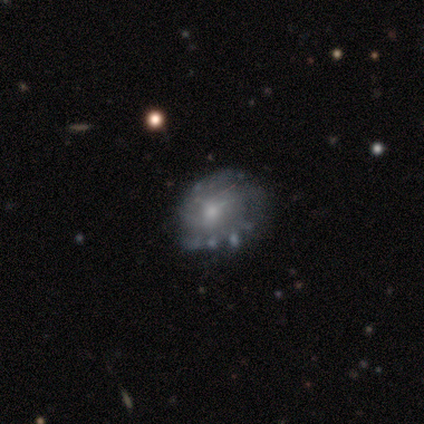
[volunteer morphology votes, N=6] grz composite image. It shows a featured or disk galaxy (50%, tied with star or artifact) with no bar (67%), tight (33%, tied with medium and loose) spiral arms (100%) and a small central bulge (67%). Merging: none (67%).